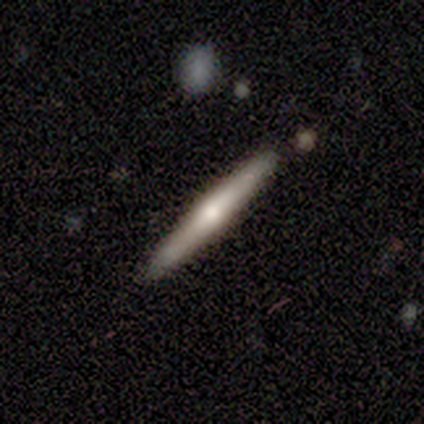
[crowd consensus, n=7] Q: Smooth or featured?
A: featured or disk (57%); runner-up: smooth (43%)
Q: Edge-on disk?
A: yes (100%)
Q: Edge-on bulge?
A: rounded (75%); runner-up: none (25%)
Q: Merging?
A: none (100%)